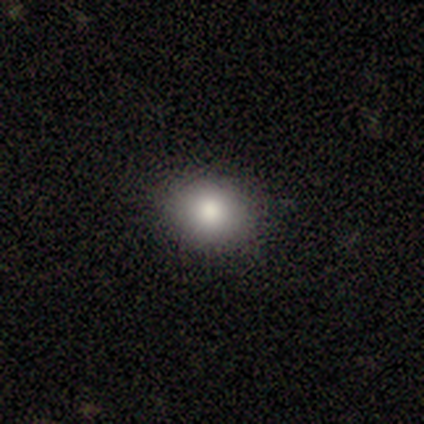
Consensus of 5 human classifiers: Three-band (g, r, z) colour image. It shows a smooth galaxy with no disk features (80%) that is round (75%). Merging: none (100%).